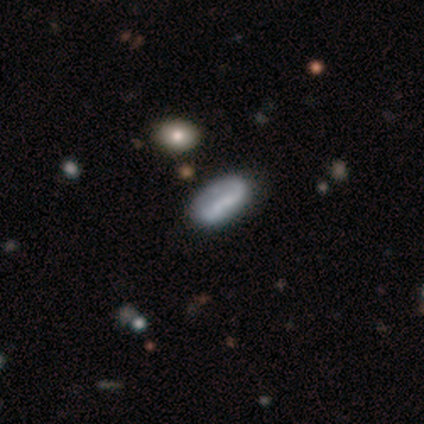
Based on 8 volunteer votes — Smooth or featured: smooth — 62% (featured or disk — 38%)
How rounded: in between — 80% (cigar-shaped — 20%)
Merging: none — 50% (major disturbance — 25%)